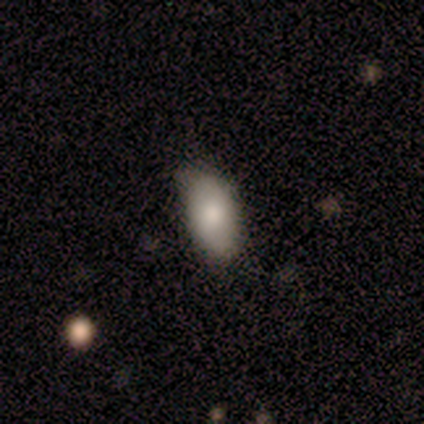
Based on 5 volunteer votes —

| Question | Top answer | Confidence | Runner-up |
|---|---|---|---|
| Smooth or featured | smooth | 100% | — |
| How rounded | in between | 100% | — |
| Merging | none | 80% | minor disturbance (20%) |